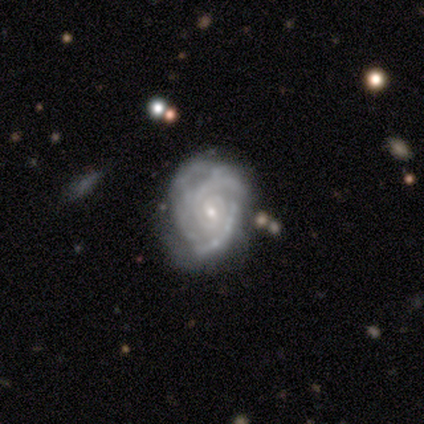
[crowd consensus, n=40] Smooth or featured: featured or disk — 90% (smooth — 8%)
Edge-on disk: no — 100%
Bar: no — 69% (weak — 28%)
Spiral arms: yes — 94% (no — 6%)
Spiral winding: tight — 85% (medium — 12%)
Spiral arm count: can't tell — 41% (3 — 26%)
Bulge size: small — 89% (moderate — 11%)
Merging: none — 59% (minor disturbance — 28%)